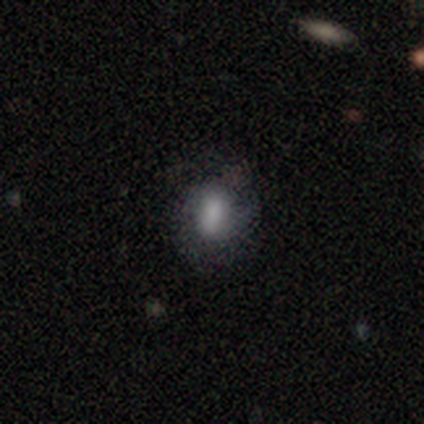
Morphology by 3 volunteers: Q: Smooth or featured?
A: smooth (67%); runner-up: featured or disk (33%)
Q: How rounded?
A: round (50%); tied with: in between (50%)
Q: Merging?
A: none (33%); tied with: major disturbance (33%); merger (33%)